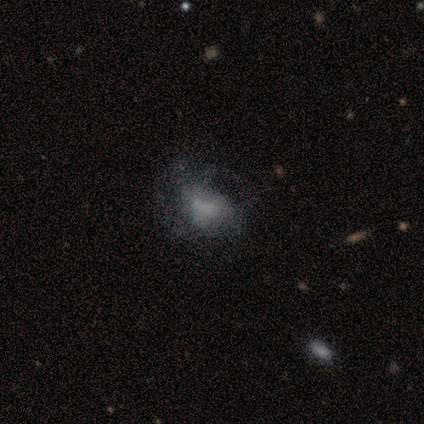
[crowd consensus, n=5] Q: Smooth or featured?
A: featured or disk (60%); runner-up: smooth (20%)
Q: Edge-on disk?
A: no (100%)
Q: Bar?
A: weak (67%); runner-up: no (33%)
Q: Spiral arms?
A: no (67%); runner-up: yes (33%)
Q: Bulge size?
A: moderate (33%); tied with: small (33%); none (33%)
Q: Merging?
A: major disturbance (50%); runner-up: none (25%)